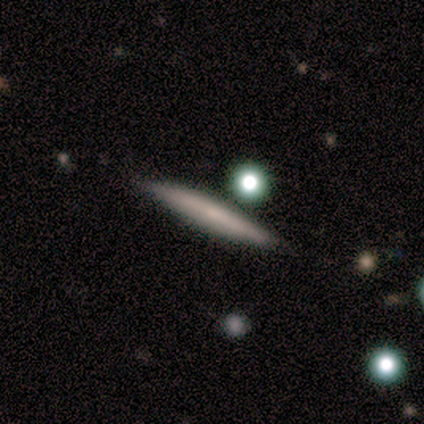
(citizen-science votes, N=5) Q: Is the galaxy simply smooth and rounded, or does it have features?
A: featured or disk — 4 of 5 (80%).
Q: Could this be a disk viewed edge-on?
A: yes — 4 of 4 (100%).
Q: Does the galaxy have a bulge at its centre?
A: none — 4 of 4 (100%).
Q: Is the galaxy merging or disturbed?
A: none — 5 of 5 (100%).